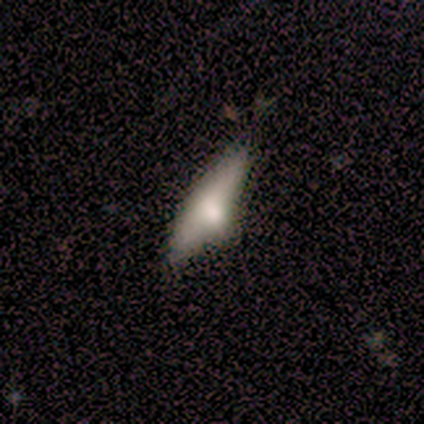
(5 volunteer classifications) Overall: smooth (80%). How rounded: cigar-shaped (50%; round 25%). Merging: none (60%; minor disturbance 20%).